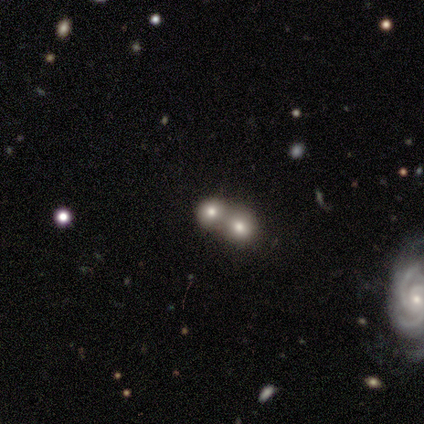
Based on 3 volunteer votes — Smooth or featured?
  - smooth: 67% *
  - featured or disk: 33%
  - star or artifact: 0%
How rounded?
  - round: 100% *
  - in between: 0%
  - cigar-shaped: 0%
Merging?
  - merger: 67% *
  - major disturbance: 33%
  - none: 0%
  - minor disturbance: 0%